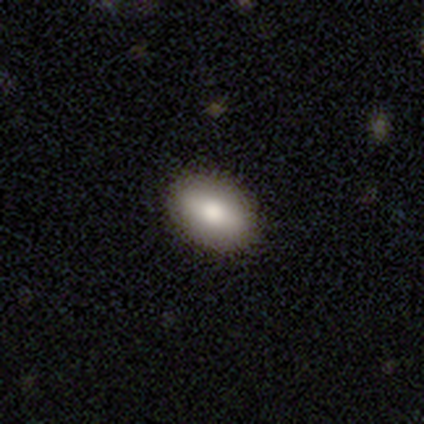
Smooth or featured? 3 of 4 (75%) said smooth. How rounded? 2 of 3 (67%) said in between. Merging? 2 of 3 (67%) said minor disturbance.